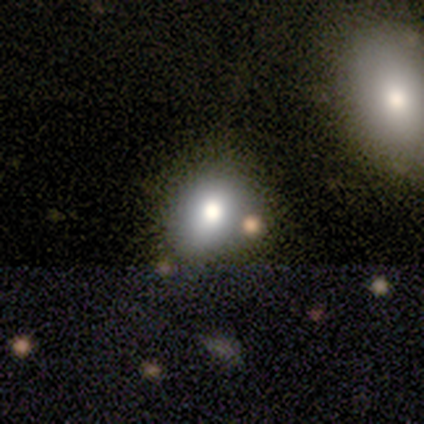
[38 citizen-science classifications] This is likely a smooth galaxy (76%). How rounded: possibly round (55%). Merging: likely none (73%).